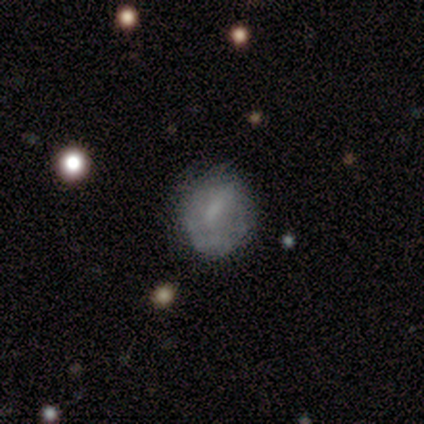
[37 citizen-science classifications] Morphology: type=featured or disk (49%); edge-on=no (100%); bar=weak (72%); spiral arms=yes (56%); winding=medium (50%); arm count=can't tell (50%); bulge=none (44%); merging=none (49%).